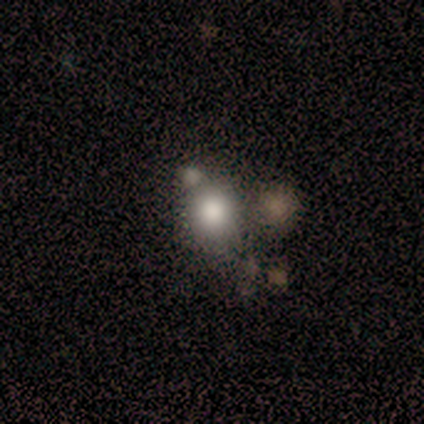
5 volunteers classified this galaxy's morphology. Q: Smooth or featured?
A: smooth (40%); tied with: star or artifact (40%)
Q: How rounded?
A: round (100%)
Q: Merging?
A: none (67%); runner-up: merger (33%)